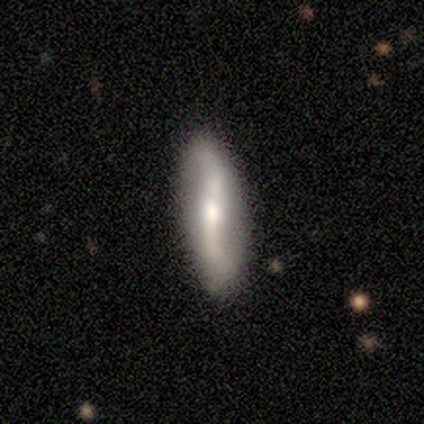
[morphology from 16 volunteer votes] Volunteers were most divided on "bar": strong: 56%, no: 33%, weak: 11%. More confident: spiral arm count — 2 (100%); edge-on disk — no (90%); merging — none (87%); spiral winding — loose (86%); spiral arms — yes (78%); smooth or featured — featured or disk (62%); bulge size — moderate (56%).